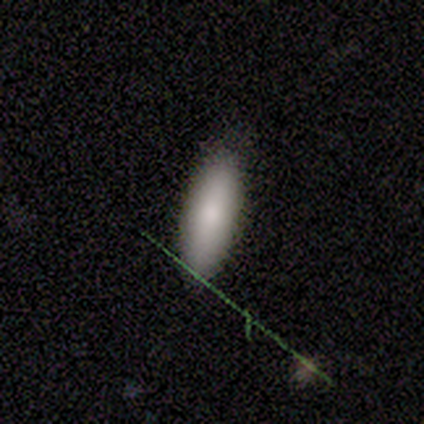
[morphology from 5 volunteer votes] type=smooth (100%); roundness=in between (80%); merging=none (100%).